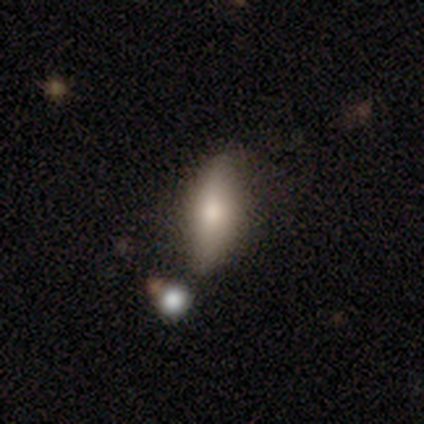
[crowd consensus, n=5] A smooth galaxy with no disk features (100%) that is in between round and cigar-shaped (60%). Merging: none (80%).